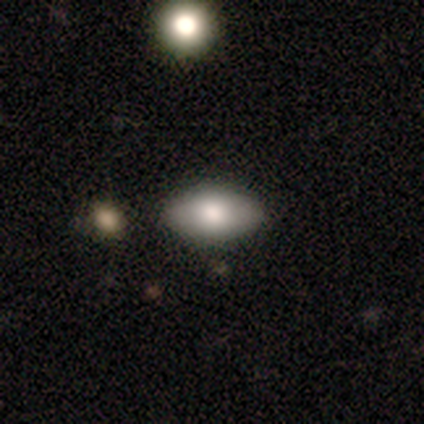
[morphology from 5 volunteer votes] Smooth or featured?
  - smooth: 60% *
  - featured or disk: 20%
  - star or artifact: 20%
How rounded?
  - in between: 100% *
  - round: 0%
  - cigar-shaped: 0%
Merging?
  - none: 100% *
  - minor disturbance: 0%
  - major disturbance: 0%
  - merger: 0%